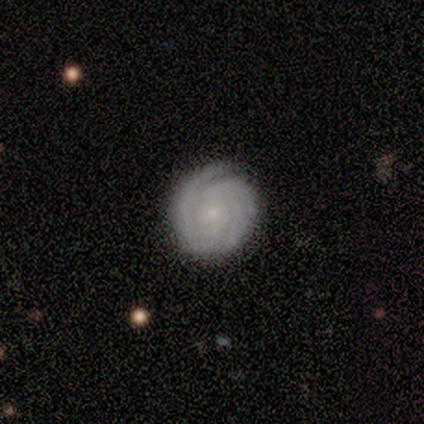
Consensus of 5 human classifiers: smooth-or-featured: featured or disk: 100% | smooth: 0% | star or artifact: 0%
  disk-edge-on: no: 100% | yes: 0%
    bar: no: 80% | strong: 20% | weak: 0%
    has-spiral-arms: yes: 100% | no: 0%
      spiral-winding: tight: 80% | loose: 20% | medium: 0%
      spiral-arm-count: can't tell: 80% | 4: 20% | 1: 0% | 2: 0% | 3: 0% | more than 4: 0%
    bulge-size: small: 100% | dominant: 0% | large: 0% | moderate: 0% | none: 0%
  merging: none: 80% | minor disturbance: 20% | major disturbance: 0% | merger: 0%